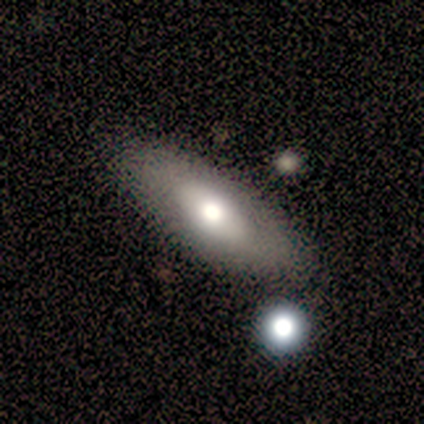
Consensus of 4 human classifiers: Smooth or featured: smooth — 100%
How rounded: in between — 100%
Merging: none — 100%